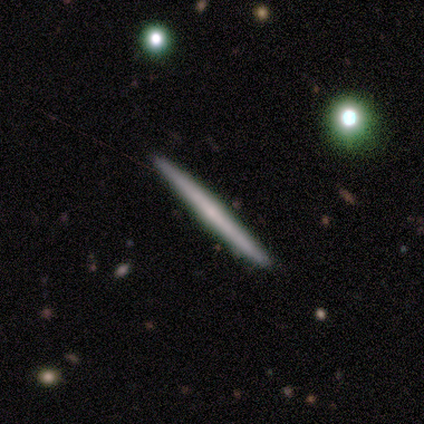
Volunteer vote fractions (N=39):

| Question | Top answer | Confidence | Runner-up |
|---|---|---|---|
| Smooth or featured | smooth | 51% | featured or disk (46%) |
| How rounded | cigar-shaped | 100% | — |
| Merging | none | 92% | minor disturbance (8%) |